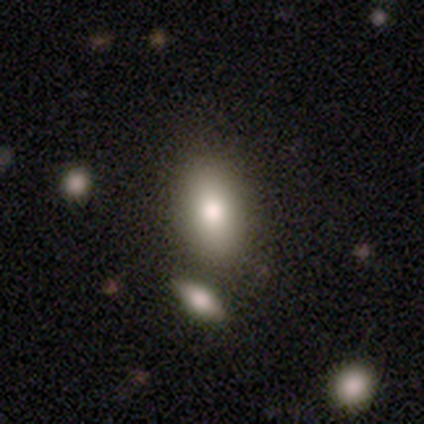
Morphology: type=smooth (82%); roundness=in between (88%); merging=merger (51%).